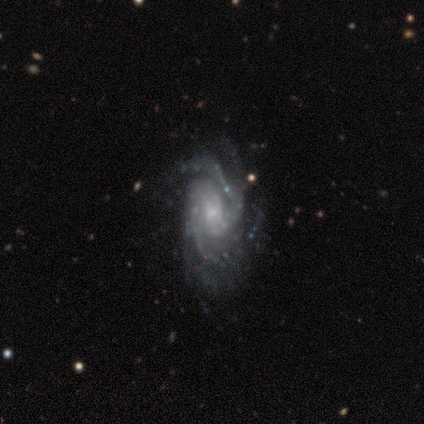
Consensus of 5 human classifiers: Smooth or featured? 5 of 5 (100%) said featured or disk. Edge-on disk? 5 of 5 (100%) said no. Bar? 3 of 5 (60%) said no. Spiral arms? 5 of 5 (100%) said yes. Spiral winding? 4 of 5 (80%) said tight. Spiral arm count? 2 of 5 (40%) said 4. Bulge size? 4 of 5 (80%) said small. Merging? 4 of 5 (80%) said none.